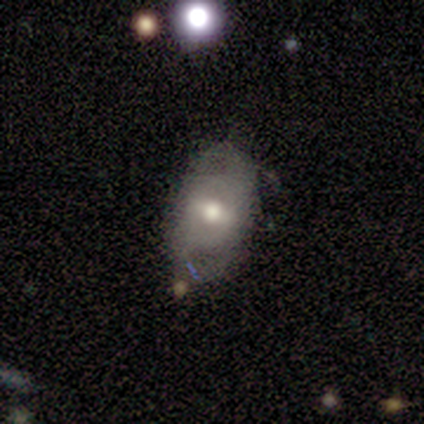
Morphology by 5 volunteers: Smooth or featured? smooth (60%)
How rounded? in between (100%)
Merging? none (40%, tied with minor disturbance)